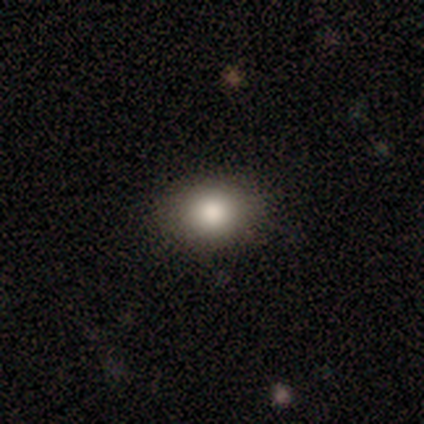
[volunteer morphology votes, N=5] smooth-or-featured: smooth: 100% | featured or disk: 0% | star or artifact: 0%
  how-rounded: in between: 60% | round: 40% | cigar-shaped: 0%
  merging: none: 80% | major disturbance: 20% | minor disturbance: 0% | merger: 0%